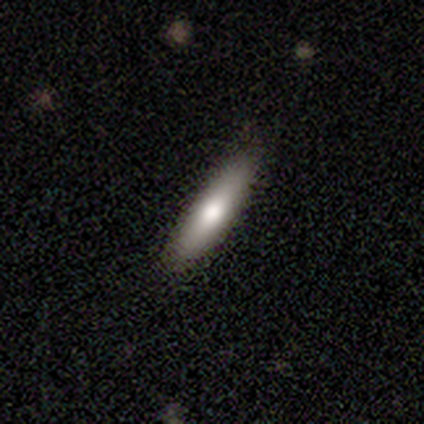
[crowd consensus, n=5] smooth 80%, featured or disk 20%, star or artifact 0%. Down the decision tree: how rounded — cigar-shaped (100%); merging — none (100%).